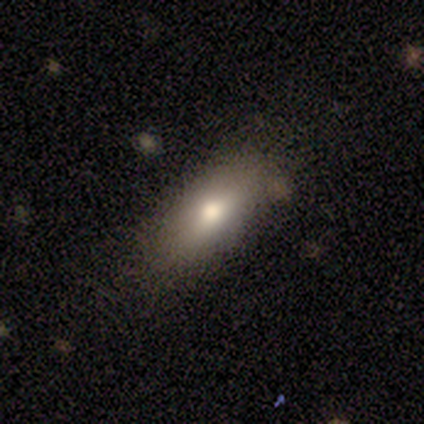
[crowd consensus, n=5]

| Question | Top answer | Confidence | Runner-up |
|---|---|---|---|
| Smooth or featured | smooth | 40% | tied: star or artifact (40%) |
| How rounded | in between | 100% | — |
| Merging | none | 100% | — |